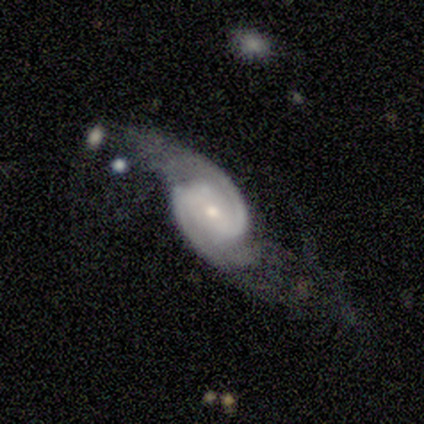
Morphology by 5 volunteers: featured or disk 100%, smooth 0%, star or artifact 0%. Down the decision tree: edge-on disk — no (100%); bar — no (60%); spiral arms — yes (100%); spiral arm count — 2 (100%); spiral winding — medium (80%); bulge size — small (80%); merging — major disturbance (60%).